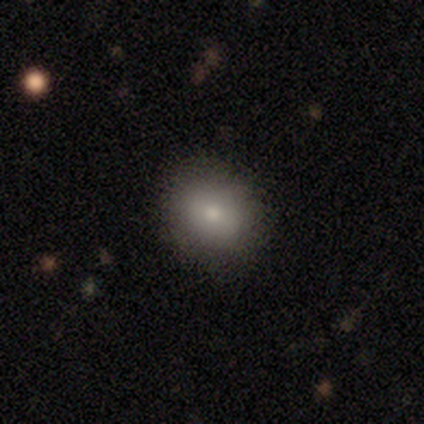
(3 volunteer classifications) A smooth galaxy with no disk features (67%) that is round (100%). Merging: none (67%).